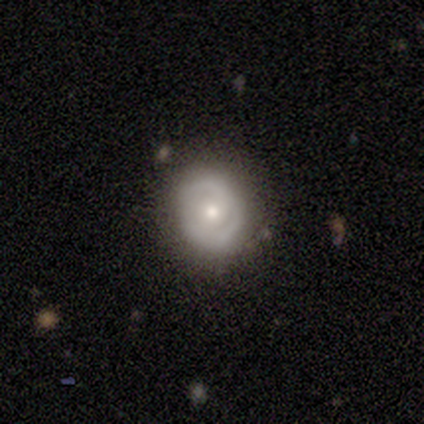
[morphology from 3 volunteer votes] smooth-or-featured: featured or disk: 67% | smooth: 33% | star or artifact: 0%
  disk-edge-on: no: 100% | yes: 0%
    bar: weak: 50% (tied) | no: 50% (tied) | strong: 0%
    has-spiral-arms: yes: 50% (tied) | no: 50% (tied)
      spiral-winding: tight: 100% | medium: 0% | loose: 0%
      spiral-arm-count: 2: 100% | 1: 0% | 3: 0% | 4: 0% | more than 4: 0% | can't tell: 0%
    bulge-size: moderate: 50% (tied) | small: 50% (tied) | dominant: 0% | large: 0% | none: 0%
  merging: none: 100% | minor disturbance: 0% | major disturbance: 0% | merger: 0%